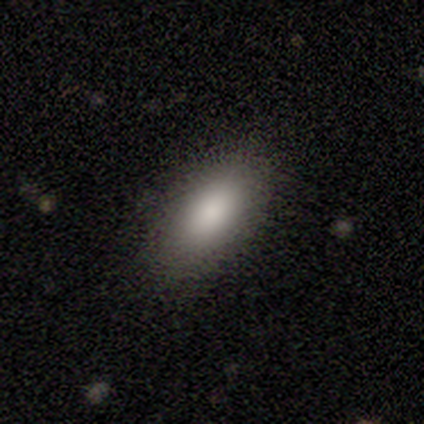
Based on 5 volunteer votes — This is clearly a smooth galaxy (100%). How rounded: clearly in between (100%). Merging: clearly none (80%).